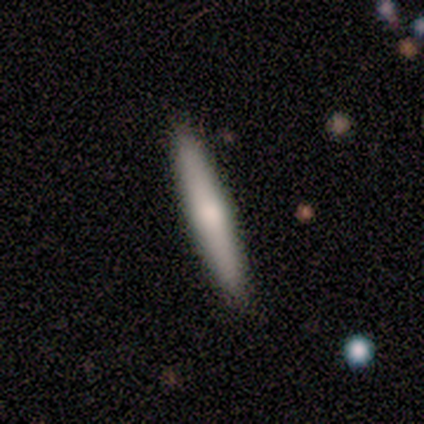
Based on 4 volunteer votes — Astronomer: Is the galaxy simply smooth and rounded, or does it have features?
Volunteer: smooth — 50%, tied with featured or disk at 50%.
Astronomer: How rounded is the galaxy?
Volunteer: cigar-shaped — 100%.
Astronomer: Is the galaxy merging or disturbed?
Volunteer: none — 75%.